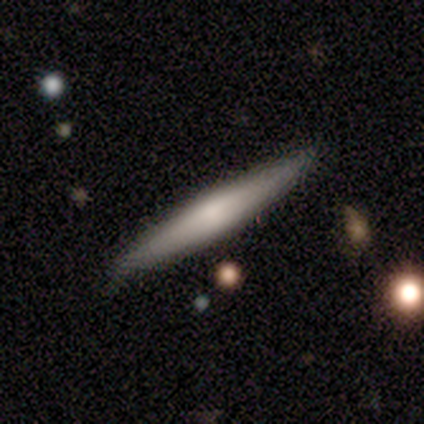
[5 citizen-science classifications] A featured or disk galaxy (60%) viewed edge-on (100%) with no central bulge (67%). Merging: none (80%).